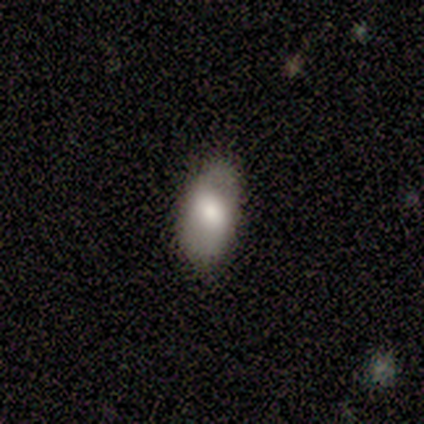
Q: Smooth or featured?
A: smooth (80%); runner-up: featured or disk (20%)
Q: How rounded?
A: in between (100%)
Q: Merging?
A: none (80%); runner-up: minor disturbance (20%)